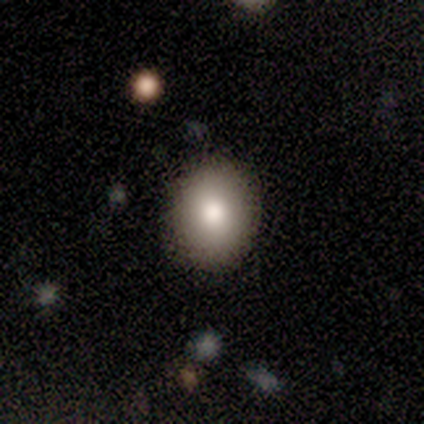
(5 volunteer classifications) Smooth or featured: smooth — 80% (star or artifact — 20%)
How rounded: round — 100%
Merging: none — 75% (minor disturbance — 25%)